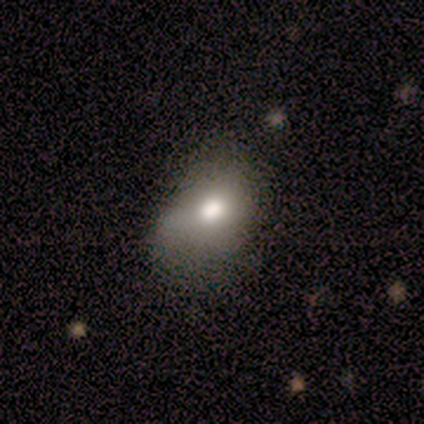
smooth-or-featured: smooth: 86% | featured or disk: 14% | star or artifact: 0%
  how-rounded: in between: 81% | round: 19% | cigar-shaped: 0%
  merging: minor disturbance: 46% | none: 38% | major disturbance: 16% | merger: 0%